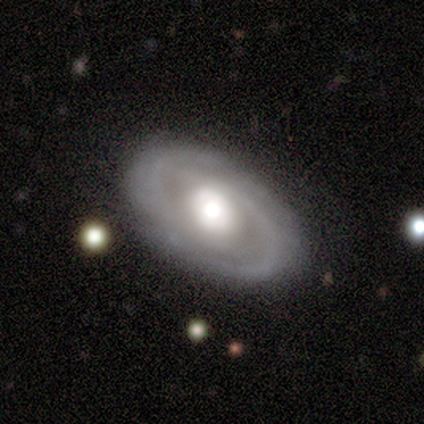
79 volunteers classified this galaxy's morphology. Overall: featured or disk (84%). Edge-on disk: no (97%). Bar: no (69%). Spiral arms: yes (78%). Spiral arm count: 2 (62%; can't tell 28%). Spiral winding: tight (52%; medium 34%). Bulge size: moderate (50%; large 41%). Merging: none (50%).